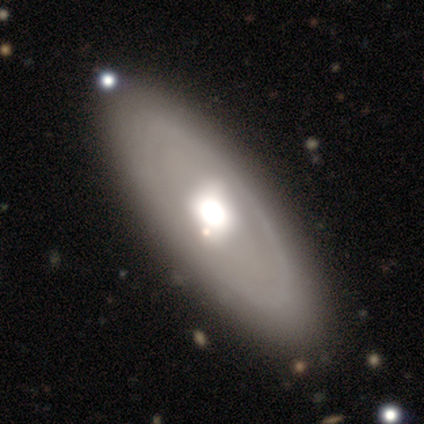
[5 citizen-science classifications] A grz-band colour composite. It shows a featured or disk galaxy (60%) with a weak bar (50%, tied with no), tight (100%) spiral arms (50%, tied with no) and a large central bulge (50%, tied with moderate). Merging: none (80%).